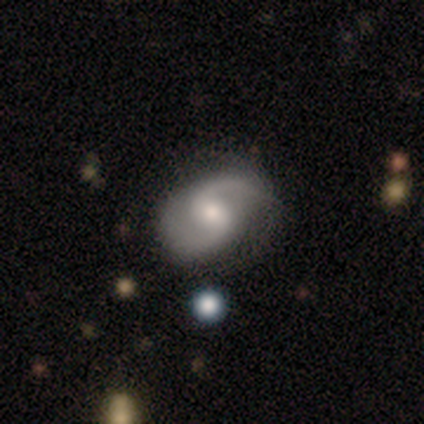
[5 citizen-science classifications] Smooth or featured? 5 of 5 (100%) said featured or disk. Edge-on disk? 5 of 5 (100%) said no. Bar? 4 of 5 (80%) said weak. Spiral arms? 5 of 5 (100%) said yes. Spiral winding? 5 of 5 (100%) said medium. Spiral arm count? 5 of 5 (100%) said 2. Bulge size? 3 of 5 (60%) said moderate. Merging? 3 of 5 (60%) said none.